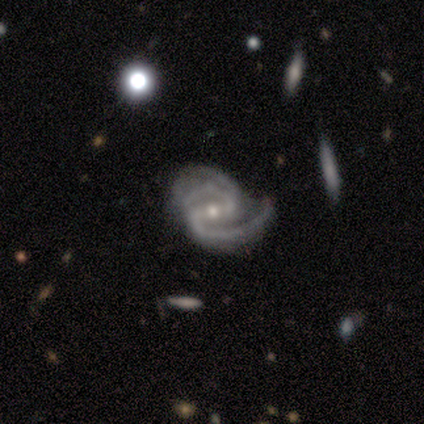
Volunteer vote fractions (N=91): Smooth or featured? 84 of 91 (92%) said featured or disk. Edge-on disk? 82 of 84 (98%) said no. Bar? 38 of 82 (46%) said strong. Spiral arms? 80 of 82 (98%) said yes. Spiral winding? 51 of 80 (64%) said medium. Spiral arm count? 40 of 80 (50%) said 2. Bulge size? 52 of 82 (63%) said small. Merging? 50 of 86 (58%) said none.